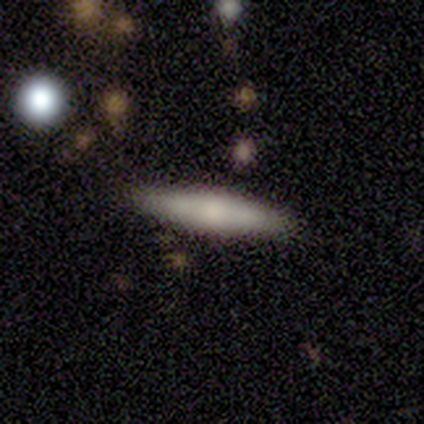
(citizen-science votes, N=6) Q: Smooth or featured?
A: smooth (67%); runner-up: featured or disk (33%)
Q: How rounded?
A: cigar-shaped (100%)
Q: Merging?
A: none (67%); runner-up: minor disturbance (17%)